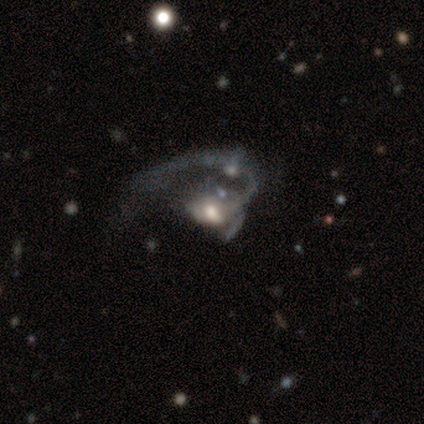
A featured or disk galaxy (88%) with no bar (86%), 1 (60%) medium (60%) spiral arms (71%) and a moderate central bulge (57%).

Vote fractions:
- Smooth or featured? featured or disk: 88% / smooth: 12% / star or artifact: 0%
- Edge-on disk? no: 100% / yes: 0%
- Bar? no: 86% / weak: 14% / strong: 0%
- Spiral arms? yes: 71% / no: 29%
- Spiral winding? medium: 60% / loose: 40% / tight: 0%
- Spiral arm count? 1: 60% / can't tell: 40% / 2: 0% / 3: 0% / 4: 0% / more than 4: 0%
- Bulge size? moderate: 57% / large: 29% / small: 14% / dominant: 0% / none: 0%
- Merging? major disturbance: 50% (tied) / merger: 50% (tied) / none: 0% / minor disturbance: 0%